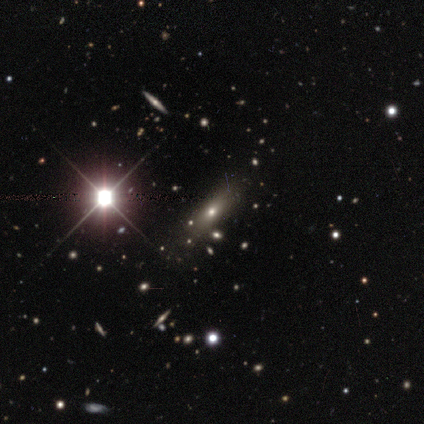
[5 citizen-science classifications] Smooth or featured?
  - smooth: 60% *
  - featured or disk: 20%
  - star or artifact: 20%
How rounded?
  - in between: 67% *
  - cigar-shaped: 33%
  - round: 0%
Merging?
  - none: 100% *
  - minor disturbance: 0%
  - major disturbance: 0%
  - merger: 0%